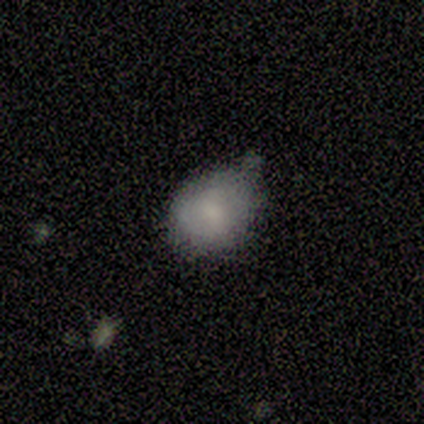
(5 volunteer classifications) A smooth galaxy with no disk features (80%) that is round (50%, tied with in between). Merging: none (40%, tied with minor disturbance).